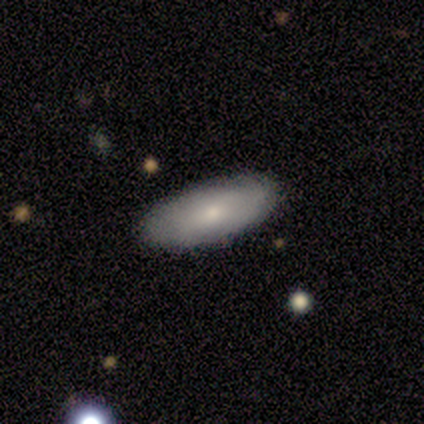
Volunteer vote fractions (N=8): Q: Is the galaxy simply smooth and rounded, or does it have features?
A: smooth — 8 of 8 (100%).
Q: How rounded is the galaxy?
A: in between — 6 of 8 (75%).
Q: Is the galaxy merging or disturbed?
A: none — 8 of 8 (100%).